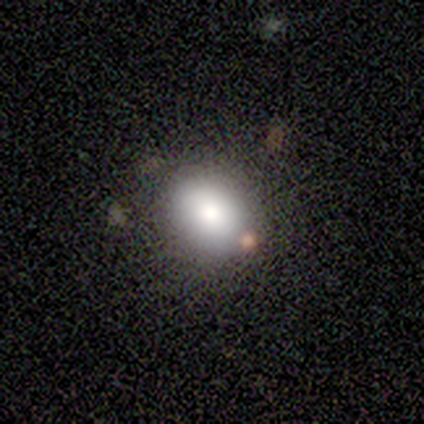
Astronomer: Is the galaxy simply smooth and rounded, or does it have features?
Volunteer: smooth — 33%, tied with featured or disk and star or artifact at 33%.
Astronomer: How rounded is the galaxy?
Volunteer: in between — 100%.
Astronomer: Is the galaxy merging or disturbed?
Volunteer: none — 50%, tied with minor disturbance at 50%.